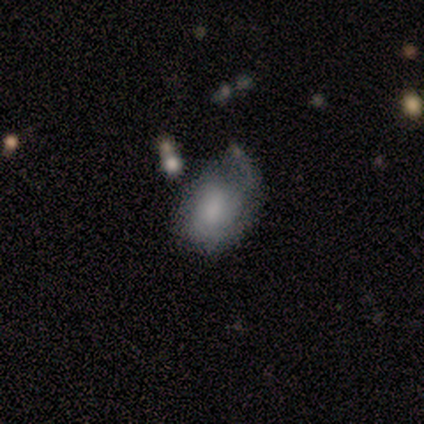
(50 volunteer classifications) smooth_or_featured: smooth (p=0.48) [alt: featured or disk p=0.42]
how_rounded: in between (p=0.75) [alt: round p=0.25]
merging: minor disturbance (p=0.40) [alt: major disturbance p=0.29]